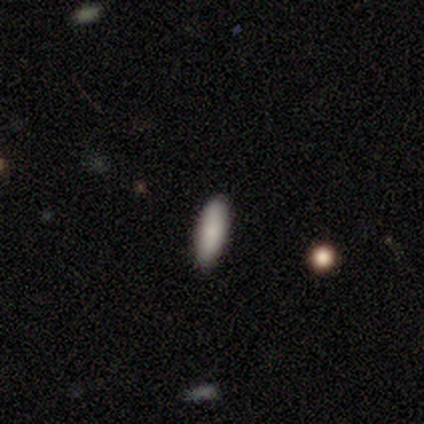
This appears to be a smooth galaxy with no disk features (100%) that is in between round and cigar-shaped (60%). Merging: none (100%).